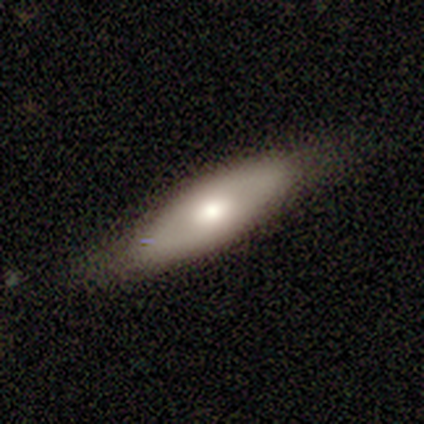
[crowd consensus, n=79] Smooth or featured? 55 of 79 (70%) said smooth. How rounded? 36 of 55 (65%) said in between. Merging? 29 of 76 (38%) said none.